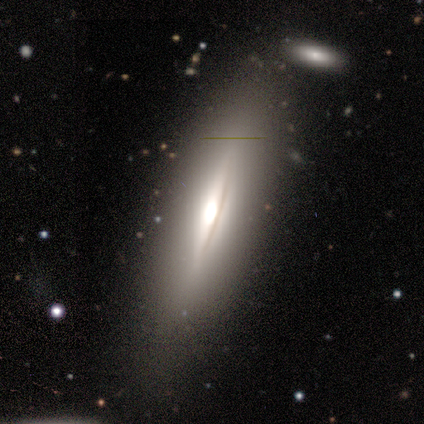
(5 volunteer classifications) smooth-or-featured: featured or disk: 100% | smooth: 0% | star or artifact: 0%
  disk-edge-on: yes: 100% | no: 0%
    edge-on-bulge: rounded: 80% | boxy: 20% | none: 0%
  merging: none: 100% | minor disturbance: 0% | major disturbance: 0% | merger: 0%